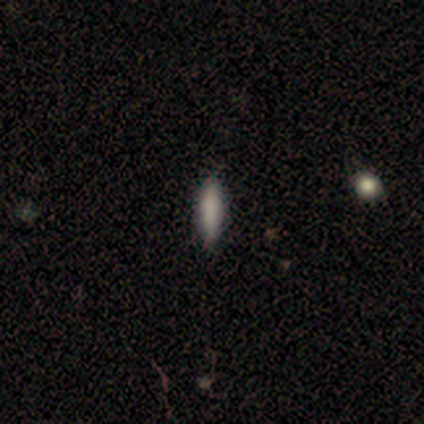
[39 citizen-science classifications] Q: Smooth or featured?
A: smooth (90%); runner-up: featured or disk (8%)
Q: How rounded?
A: cigar-shaped (83%); runner-up: in between (17%)
Q: Merging?
A: none (97%); runner-up: minor disturbance (3%)